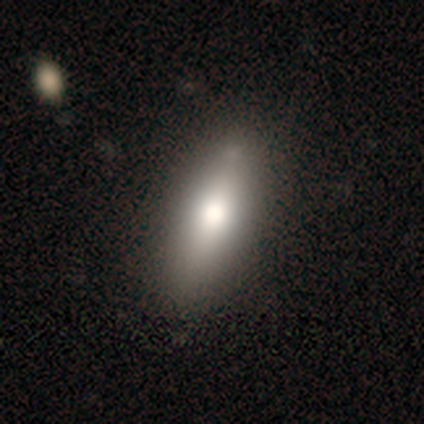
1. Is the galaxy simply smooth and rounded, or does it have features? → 100% smooth, 0% featured or disk, 0% star or artifact.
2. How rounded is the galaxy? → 80% in between, 20% cigar-shaped, 0% round.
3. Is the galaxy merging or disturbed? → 100% none, 0% minor disturbance, 0% major disturbance, 0% merger.